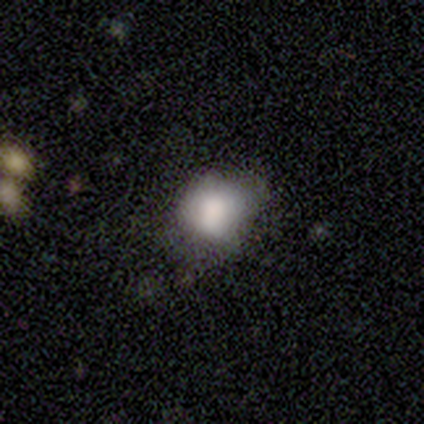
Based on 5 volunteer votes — smooth 60%, featured or disk 20%, star or artifact 20%. Down the decision tree: how rounded — in between (67%); merging — minor disturbance (75%).